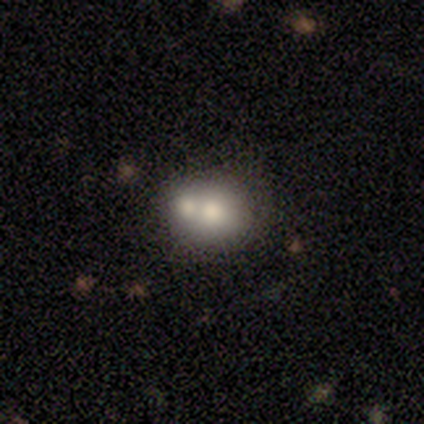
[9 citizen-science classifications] This is likely a smooth galaxy (67%). How rounded: clearly round (83%). Merging: likely merger (75%).